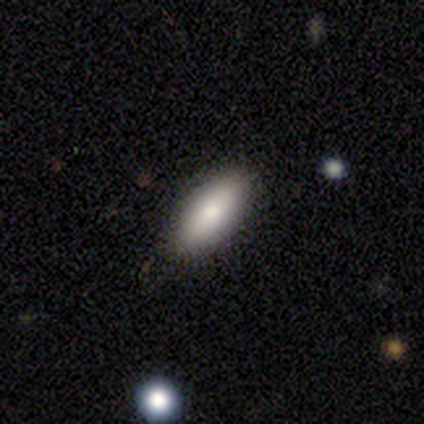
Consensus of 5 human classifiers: smooth_or_featured: smooth (p=1.00)
how_rounded: in between (p=1.00)
merging: none (p=0.80) [alt: minor disturbance p=0.20]